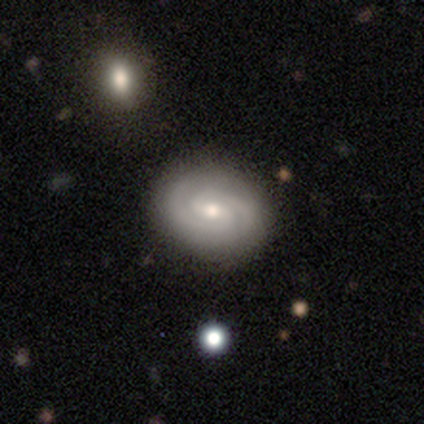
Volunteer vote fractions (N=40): A featured or disk galaxy (80%) with a weak bar (59%), 2 (90%) tight (61%) spiral arms (97%) and a small central bulge (59%). Merging: none (50%).